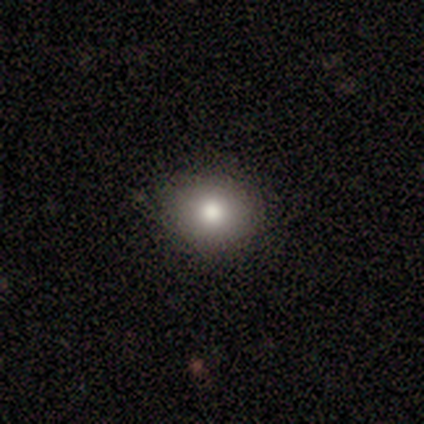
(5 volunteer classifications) Smooth or featured: smooth — 60% (featured or disk — 20%)
How rounded: round — 67% (in between — 33%)
Merging: none — 100%